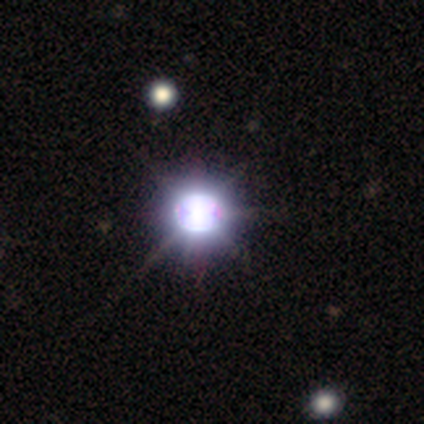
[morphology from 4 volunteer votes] type=star or artifact (100%).